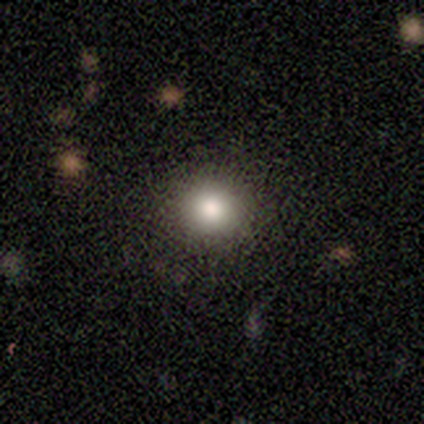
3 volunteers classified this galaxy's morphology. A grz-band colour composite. It shows a smooth galaxy with no disk features (67%) that is round (100%). Merging: none (100%).